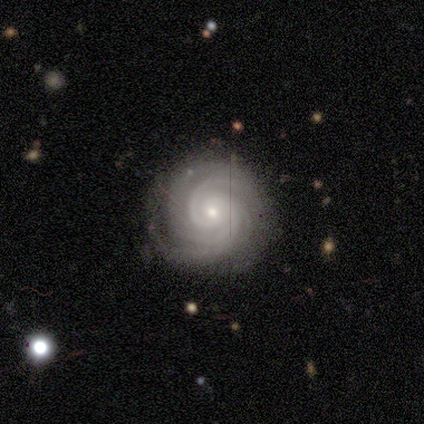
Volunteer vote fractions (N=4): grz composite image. It shows a featured or disk galaxy (75%) with no bar (67%), 3 (33%, tied with 4 and can't tell) tight (100%) spiral arms (100%) and a small central bulge (67%). Merging: none (100%).